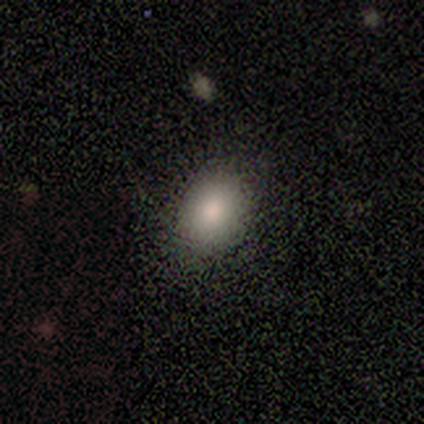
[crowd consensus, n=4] Smooth or featured: smooth — 75% (featured or disk — 25%)
How rounded: round — 67% (in between — 33%)
Merging: none — 75% (minor disturbance — 25%)